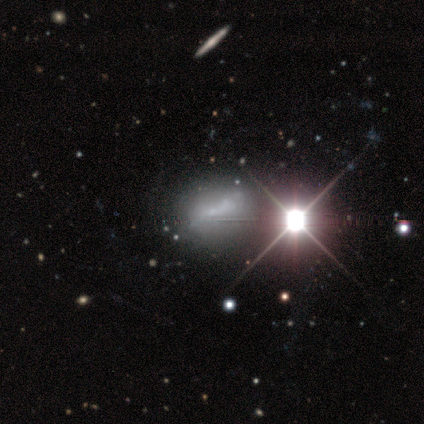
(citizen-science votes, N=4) Morphology: type=star or artifact (50%).